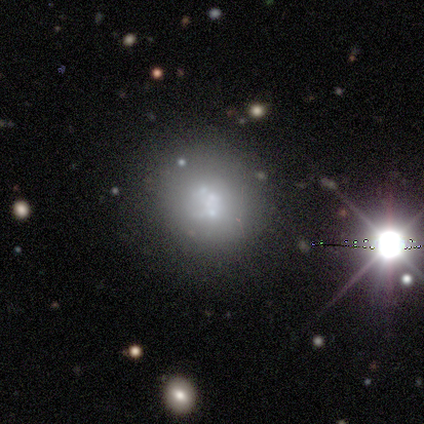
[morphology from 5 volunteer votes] A smooth galaxy with no disk features (40%, tied with star or artifact) that is round (100%). Merging: none (67%).